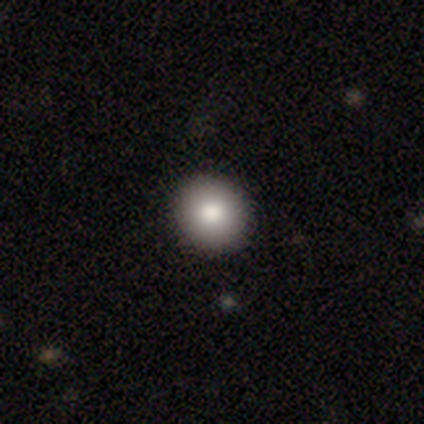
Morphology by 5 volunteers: Volunteers were most divided on "smooth or featured": smooth: 80%, star or artifact: 20%, featured or disk: 0%. More confident: how rounded — round (100%); merging — none (100%).